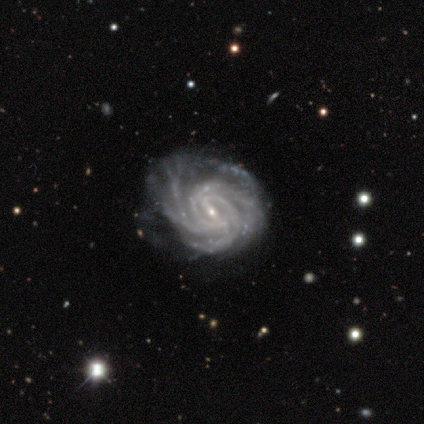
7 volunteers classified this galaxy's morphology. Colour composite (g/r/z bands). It shows a featured or disk galaxy (71%) with a weak bar (80%), 4 (60%) tight (80%) spiral arms (100%) and a small central bulge (100%). Merging: none (40%, tied with minor disturbance).